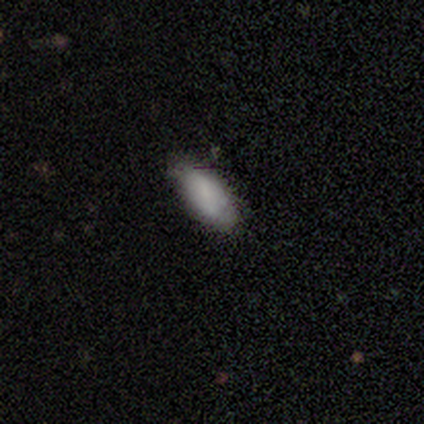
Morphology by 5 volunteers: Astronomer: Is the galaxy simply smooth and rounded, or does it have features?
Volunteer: smooth — 80%.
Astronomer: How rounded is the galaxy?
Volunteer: in between — 75%.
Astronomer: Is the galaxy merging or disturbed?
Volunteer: none — 50%.